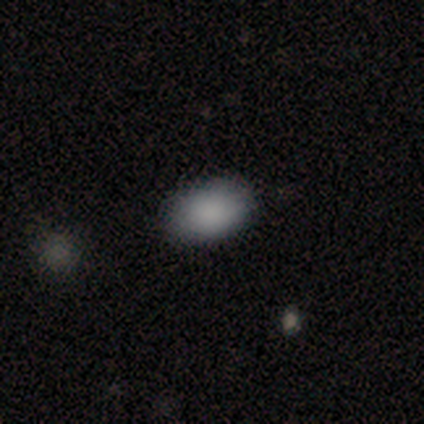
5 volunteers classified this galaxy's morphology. This appears to be a smooth galaxy with no disk features (80%) that is in between round and cigar-shaped (100%). Merging: none (100%).